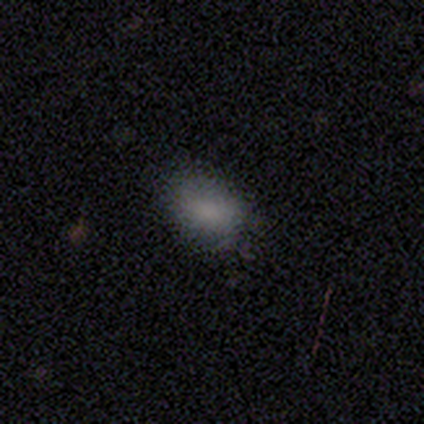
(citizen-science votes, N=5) Morphology: type=smooth (100%); roundness=in between (100%); merging=none (80%).